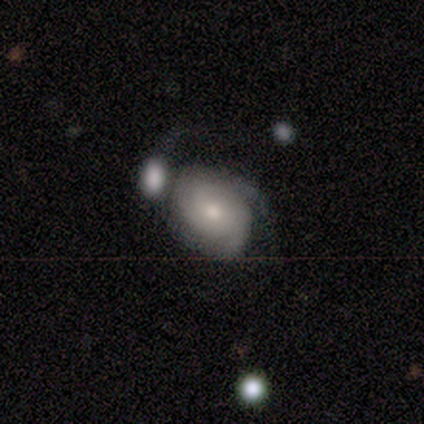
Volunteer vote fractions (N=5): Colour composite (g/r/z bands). It shows a featured or disk galaxy (60%) with no bar (100%), 3 (100%) medium (100%) spiral arms (67%) and a moderate central bulge (67%). Merging: minor disturbance (60%).